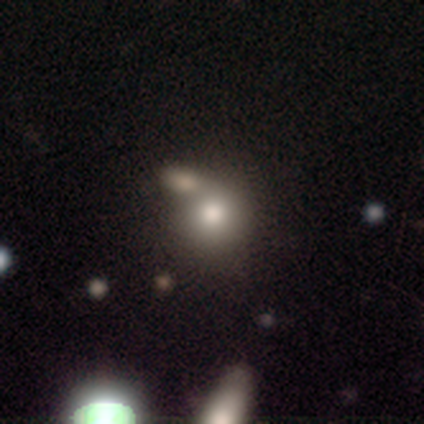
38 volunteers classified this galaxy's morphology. Overall: smooth (68%). How rounded: round (77%). Merging: none (40%; merger 37%).